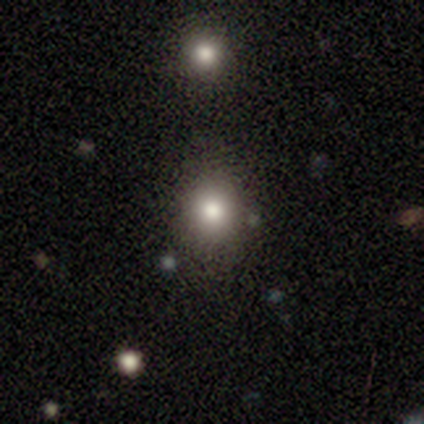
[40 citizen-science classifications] A smooth galaxy with no disk features (68%) that is round (78%).

Vote fractions:
- Smooth or featured? smooth: 68% / star or artifact: 18% / featured or disk: 15%
- How rounded? round: 78% / in between: 22% / cigar-shaped: 0%
- Merging? none: 85% / minor disturbance: 6% / merger: 6% / major disturbance: 3%